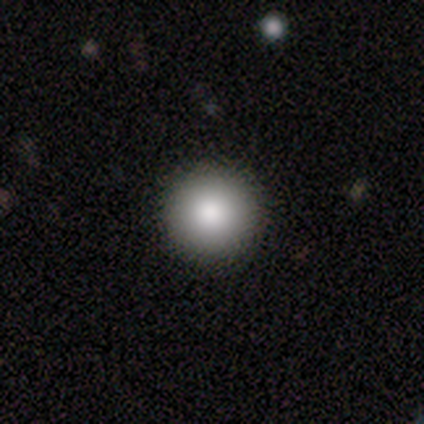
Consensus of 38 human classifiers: Smooth or featured? 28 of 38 (74%) said smooth. How rounded? 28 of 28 (100%) said round. Merging? 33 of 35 (94%) said none.